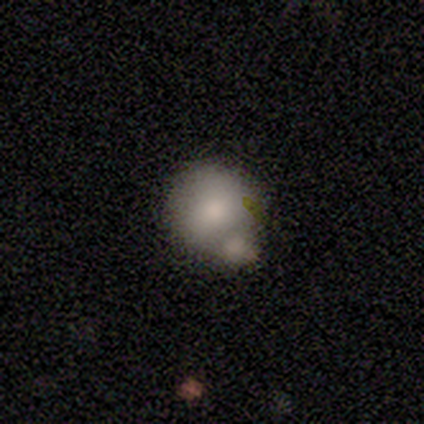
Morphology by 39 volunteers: Smooth or featured? 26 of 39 (67%) said smooth. How rounded? 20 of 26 (77%) said round. Merging? 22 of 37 (59%) said merger.